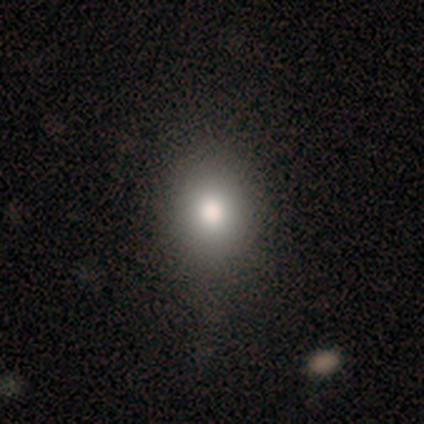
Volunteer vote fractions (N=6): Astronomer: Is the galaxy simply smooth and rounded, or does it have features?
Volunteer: smooth — 100%.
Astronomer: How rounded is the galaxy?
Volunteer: in between — 67%.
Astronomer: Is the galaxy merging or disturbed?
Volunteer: none — 67%.